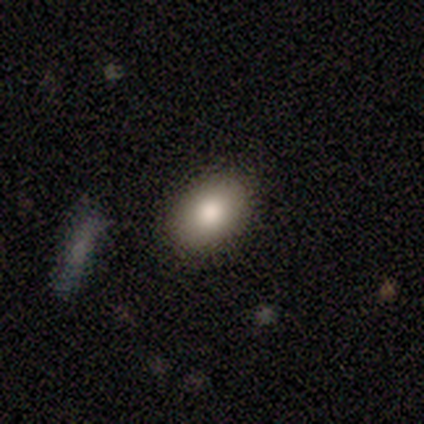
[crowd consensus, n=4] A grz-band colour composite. It shows a smooth galaxy with no disk features (75%) that is in between round and cigar-shaped (100%). Merging: none (75%).